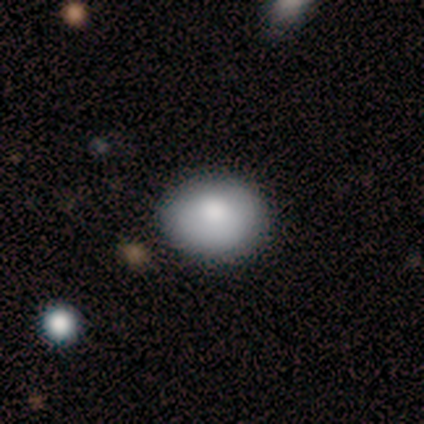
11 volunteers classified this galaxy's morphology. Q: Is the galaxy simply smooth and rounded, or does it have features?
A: smooth — 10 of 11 (91%).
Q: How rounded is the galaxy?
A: in between — 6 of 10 (60%).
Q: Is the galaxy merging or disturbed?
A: none — 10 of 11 (91%).